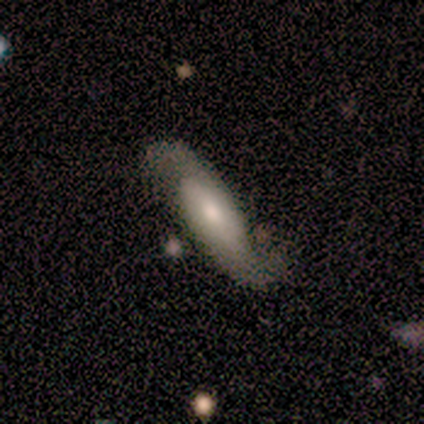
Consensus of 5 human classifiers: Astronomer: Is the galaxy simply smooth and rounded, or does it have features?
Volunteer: featured or disk — 60% (runner-up: smooth, 40%).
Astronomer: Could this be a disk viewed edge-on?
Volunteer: no — 100%.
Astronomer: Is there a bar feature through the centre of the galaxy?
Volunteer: no — 67%.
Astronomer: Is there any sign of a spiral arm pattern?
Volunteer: yes — 100%.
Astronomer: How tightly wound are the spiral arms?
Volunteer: loose — 67%.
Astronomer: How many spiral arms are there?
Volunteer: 2 — 100%.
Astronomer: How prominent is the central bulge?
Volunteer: moderate — 33%, tied with small and none at 33%.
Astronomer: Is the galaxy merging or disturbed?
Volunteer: none — 100%.